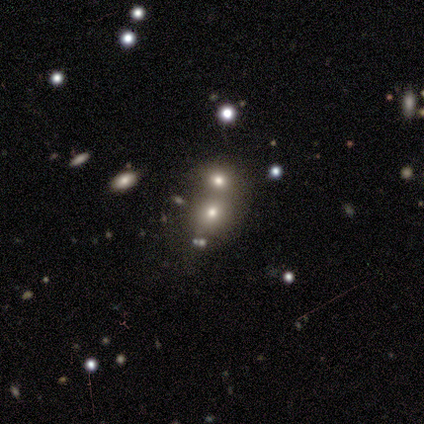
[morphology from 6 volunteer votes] A smooth galaxy with no disk features (67%) that is in between round and cigar-shaped (75%). Merging: none (50%).